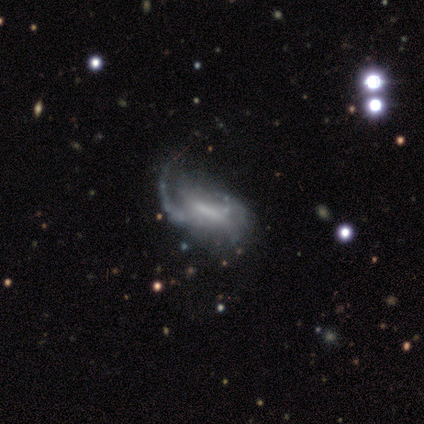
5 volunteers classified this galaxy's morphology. Q: Smooth or featured?
A: featured or disk (100%)
Q: Edge-on disk?
A: no (100%)
Q: Bar?
A: weak (60%); runner-up: strong (20%)
Q: Spiral arms?
A: no (60%); runner-up: yes (40%)
Q: Bulge size?
A: small (40%); tied with: none (40%)
Q: Merging?
A: major disturbance (60%); runner-up: none (20%)